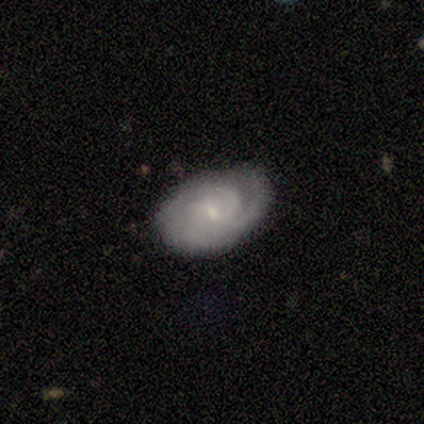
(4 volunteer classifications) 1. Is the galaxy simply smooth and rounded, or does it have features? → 100% featured or disk, 0% smooth, 0% star or artifact.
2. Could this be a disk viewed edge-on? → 100% no, 0% yes.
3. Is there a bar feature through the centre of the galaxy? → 75% no, 25% weak, 0% strong.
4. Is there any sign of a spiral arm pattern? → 100% yes, 0% no.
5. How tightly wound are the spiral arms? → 75% tight, 25% medium, 0% loose.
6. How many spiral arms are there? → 50% 3, 25% 4, 25% can't tell, 0% 1, 0% 2, 0% more than 4.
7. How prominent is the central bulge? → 100% small, 0% dominant, 0% large, 0% moderate, 0% none.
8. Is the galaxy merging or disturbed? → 75% none, 25% minor disturbance, 0% major disturbance, 0% merger.